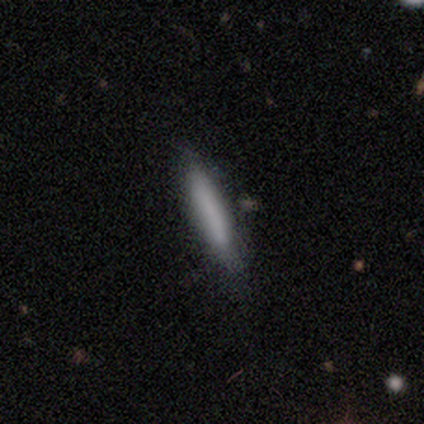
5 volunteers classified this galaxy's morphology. Smooth or featured?
  - smooth: 60% *
  - featured or disk: 40%
  - star or artifact: 0%
How rounded?
  - cigar-shaped: 100% *
  - round: 0%
  - in between: 0%
Merging?
  - none: 100% *
  - minor disturbance: 0%
  - major disturbance: 0%
  - merger: 0%